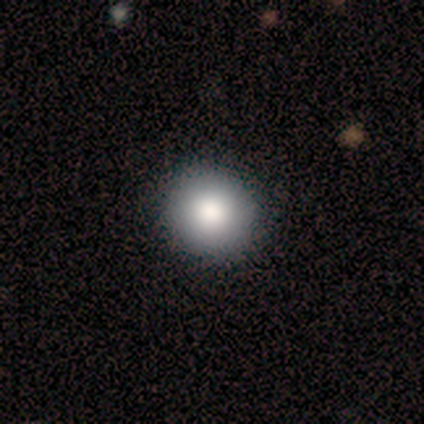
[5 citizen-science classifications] This is clearly a smooth galaxy (80%). How rounded: likely round (75%). Merging: marginally none (40%, tied with major disturbance).